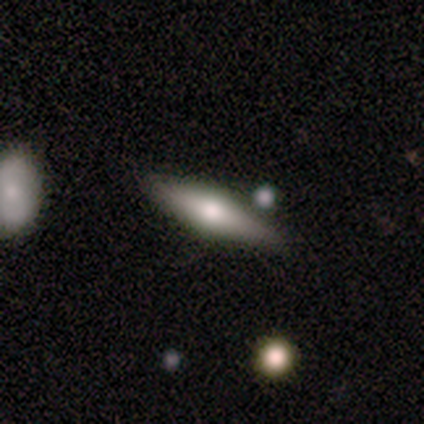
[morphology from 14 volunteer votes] smooth-or-featured: featured or disk: 86% | smooth: 7% | star or artifact: 7%
  disk-edge-on: yes: 100% | no: 0%
    edge-on-bulge: rounded: 100% | boxy: 0% | none: 0%
  merging: none: 92% | minor disturbance: 8% | major disturbance: 0% | merger: 0%